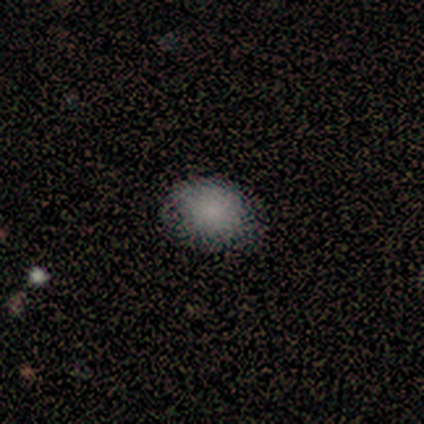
smooth_or_featured: smooth (p=0.80) [alt: star or artifact p=0.20]
how_rounded: round (p=0.50) [tied with: in between p=0.50]
merging: none (p=0.75) [alt: minor disturbance p=0.25]